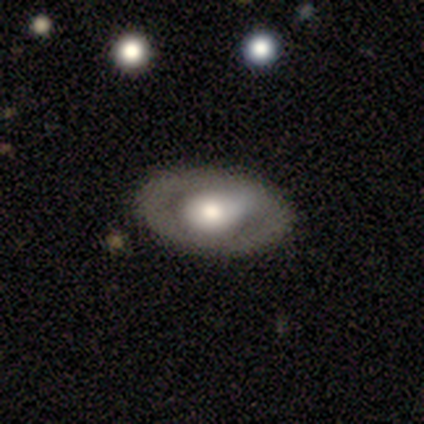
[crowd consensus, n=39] A featured or disk galaxy (59%) with no bar (87%), no spiral arms (78%) and a large central bulge (52%).

Vote fractions:
- Smooth or featured? featured or disk: 59% / smooth: 41% / star or artifact: 0%
- Edge-on disk? no: 100% / yes: 0%
- Bar? no: 87% / weak: 13% / strong: 0%
- Spiral arms? no: 78% / yes: 22%
- Bulge size? large: 52% / moderate: 43% / small: 4% / dominant: 0% / none: 0%
- Merging? none: 77% / minor disturbance: 15% / major disturbance: 5% / merger: 3%